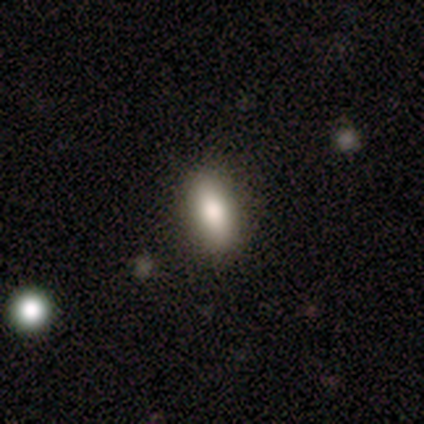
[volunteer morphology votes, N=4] This appears to be a smooth galaxy with no disk features (50%, tied with featured or disk) that is in between round and cigar-shaped (50%, tied with cigar-shaped). Merging: none (100%).